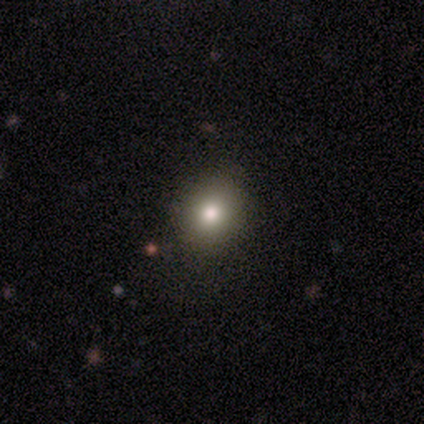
smooth-or-featured: smooth: 67% | featured or disk: 17% | star or artifact: 17%
  how-rounded: round: 50% (tied) | in between: 50% (tied) | cigar-shaped: 0%
  merging: none: 100% | minor disturbance: 0% | major disturbance: 0% | merger: 0%